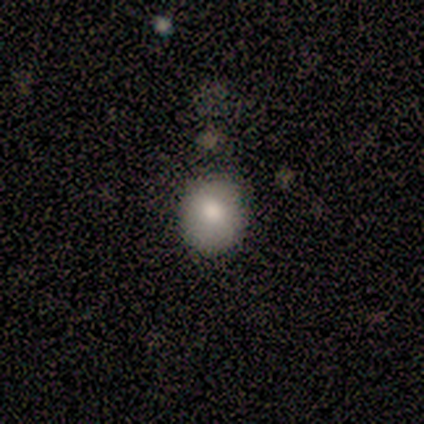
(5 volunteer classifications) Smooth or featured? smooth (80%)
How rounded? in between (75%)
Merging? none (60%)